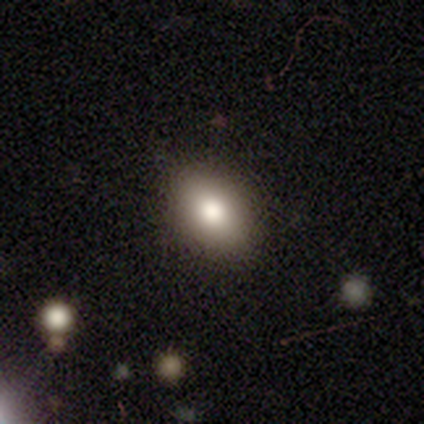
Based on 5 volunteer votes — A smooth galaxy with no disk features (80%) that is round (50%, tied with in between). Merging: none (100%).